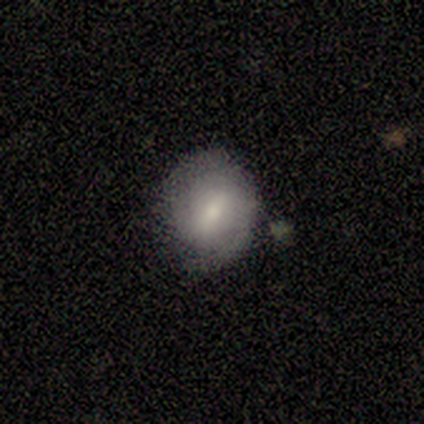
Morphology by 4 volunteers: Overall: smooth (100%). How rounded: round (75%). Merging: major disturbance (50%; none 25%).